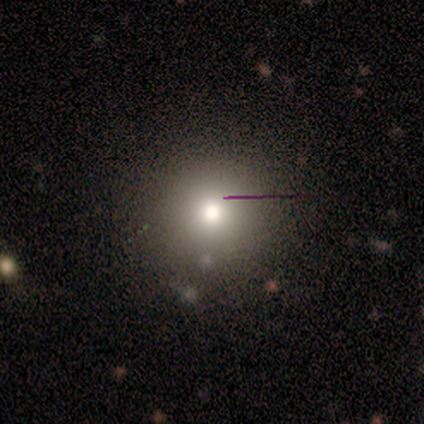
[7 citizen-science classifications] A smooth galaxy with no disk features (86%) that is round (83%). Merging: none (33%, tied with minor disturbance).